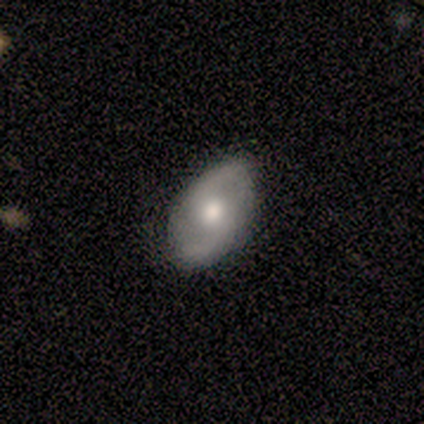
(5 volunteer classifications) Smooth or featured? featured or disk (100%)
Edge-on disk? no (80%)
Bar? no (75%)
Spiral arms? yes (100%)
Spiral winding? loose (75%)
Spiral arm count? 2 (100%)
Bulge size? moderate (75%)
Merging? none (100%)